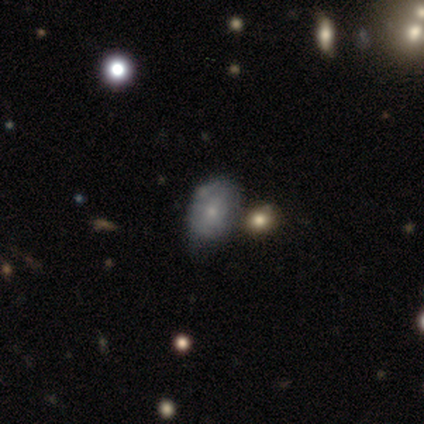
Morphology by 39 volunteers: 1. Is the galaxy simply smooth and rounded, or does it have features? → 51% smooth, 38% featured or disk, 10% star or artifact.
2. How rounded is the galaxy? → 70% in between, 30% round, 0% cigar-shaped.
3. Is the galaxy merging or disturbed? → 49% none, 40% minor disturbance, 6% major disturbance, 6% merger.